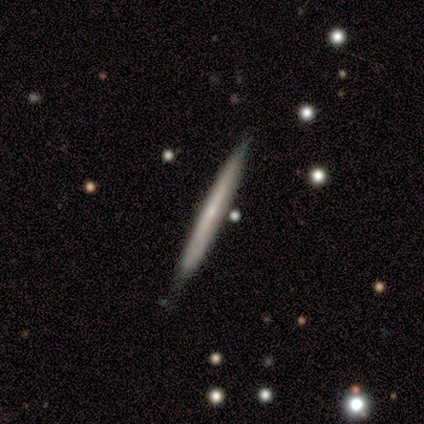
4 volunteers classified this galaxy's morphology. smooth 50% (tied), featured or disk 50% (tied), star or artifact 0%. Down the decision tree: how rounded — cigar-shaped (100%); merging — none (100%).